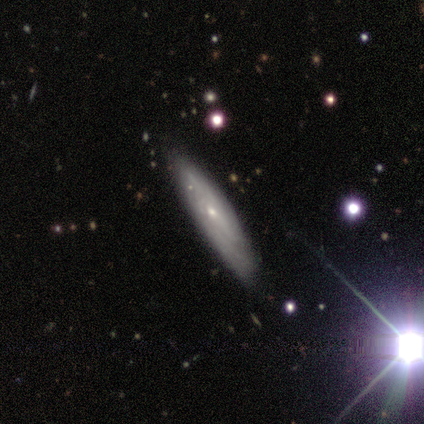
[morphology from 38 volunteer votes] featured or disk 63%, smooth 32%, star or artifact 5%. Down the decision tree: edge-on disk — no (71%); bar — no (94%); spiral arms — yes (65%); spiral arm count — can't tell (82%); spiral winding — tight (100%); bulge size — small (82%); merging — none (81%).